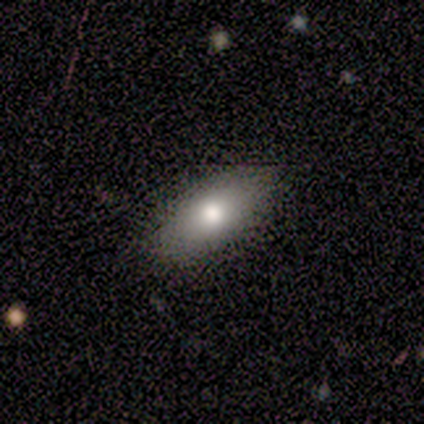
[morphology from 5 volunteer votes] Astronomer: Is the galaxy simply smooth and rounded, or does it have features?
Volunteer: smooth — 100%.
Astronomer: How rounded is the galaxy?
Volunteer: in between — 80%.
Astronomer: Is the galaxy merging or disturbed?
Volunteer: none — 80%.